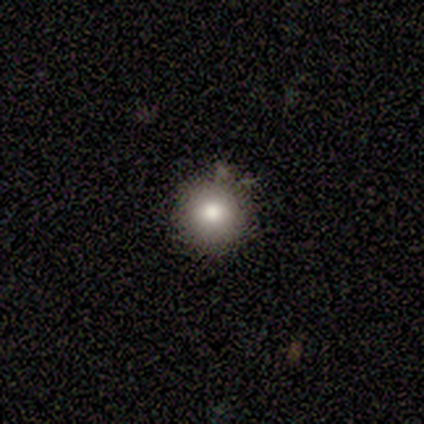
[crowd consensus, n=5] Q: Smooth or featured?
A: smooth (100%)
Q: How rounded?
A: round (100%)
Q: Merging?
A: none (100%)